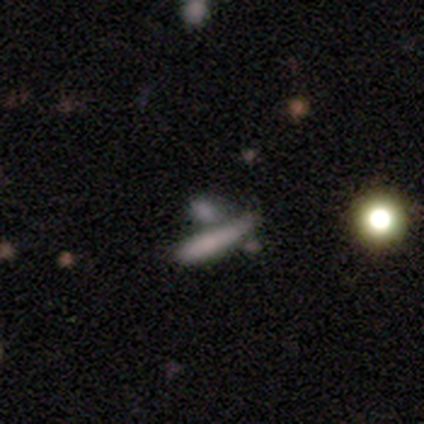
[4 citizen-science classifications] Smooth or featured? smooth (75%)
How rounded? cigar-shaped (67%)
Merging? minor disturbance (67%)